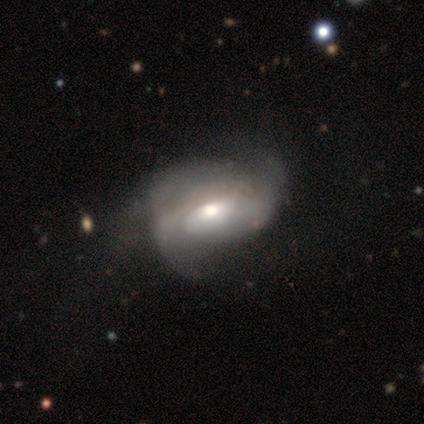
Volunteers were most divided on "spiral arm count" (3-way tie): 2: 33%, 3: 33%, can't tell: 33%, 1: 0%, 4: 0%, more than 4: 0%. More confident: edge-on disk — no (100%); bar — no (100%); bulge size — moderate (100%); smooth or featured — featured or disk (80%); spiral arms — yes (75%); spiral winding — tight (67%); merging — major disturbance (60%).